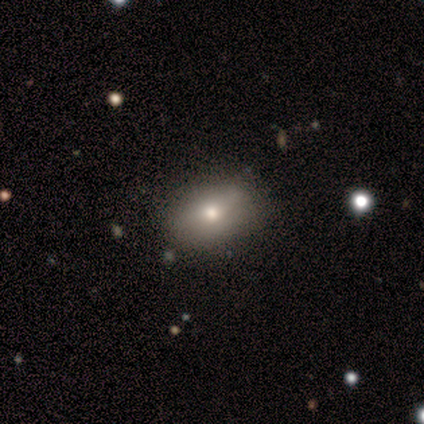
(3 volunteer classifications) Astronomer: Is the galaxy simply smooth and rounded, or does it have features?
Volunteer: smooth — 100%.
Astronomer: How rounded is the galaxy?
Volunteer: in between — 67%.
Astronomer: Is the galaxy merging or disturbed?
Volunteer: none — 100%.